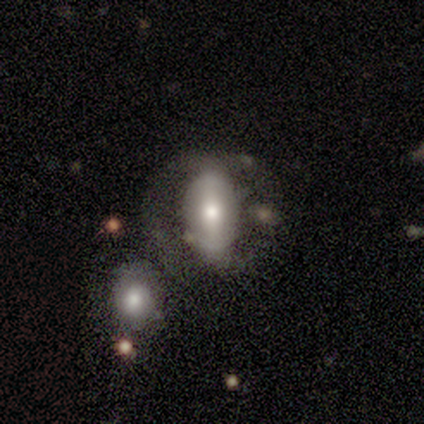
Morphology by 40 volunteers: Smooth or featured: smooth — 50% (featured or disk — 48%)
How rounded: in between — 90% (round — 10%)
Merging: none — 38% (merger — 28%)